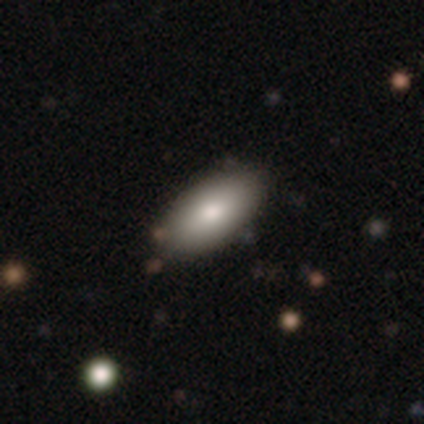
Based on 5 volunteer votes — Smooth or featured: smooth — 100%
How rounded: in between — 100%
Merging: none — 100%